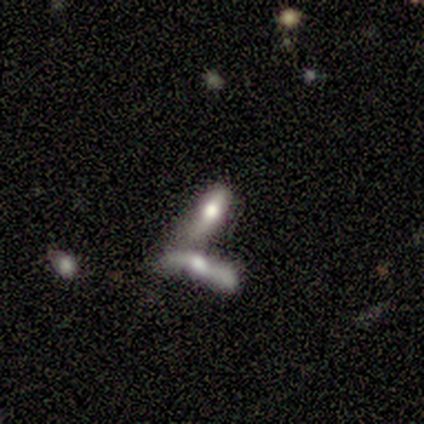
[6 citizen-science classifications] Smooth or featured?
  - featured or disk: 83% *
  - smooth: 17%
  - star or artifact: 0%
Edge-on disk?
  - no: 80% *
  - yes: 20%
Bar?
  - no: 50% *
  - strong: 25%
  - weak: 25%
Spiral arms?
  - no: 100% *
  - yes: 0%
Bulge size?
  - large: 75% *
  - moderate: 25%
  - dominant: 0%
  - small: 0%
  - none: 0%
Merging?
  - merger: 100% *
  - none: 0%
  - minor disturbance: 0%
  - major disturbance: 0%